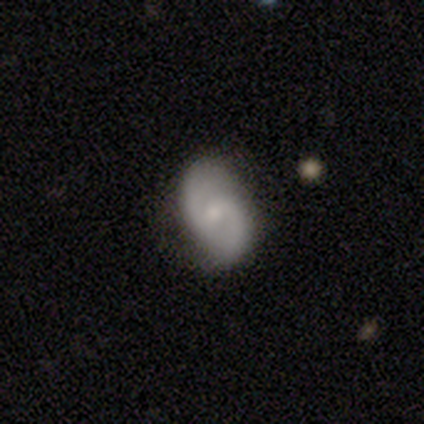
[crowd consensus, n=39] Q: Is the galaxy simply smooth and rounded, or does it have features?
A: featured or disk — 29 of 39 (74%).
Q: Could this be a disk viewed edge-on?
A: no — 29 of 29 (100%).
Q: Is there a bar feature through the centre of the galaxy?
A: weak — 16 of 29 (55%).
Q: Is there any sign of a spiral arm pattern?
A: yes — 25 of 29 (86%).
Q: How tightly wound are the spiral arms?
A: medium — 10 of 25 (40%).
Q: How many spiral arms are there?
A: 2 — 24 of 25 (96%).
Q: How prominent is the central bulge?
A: small — 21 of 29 (72%).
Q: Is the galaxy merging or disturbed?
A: none — 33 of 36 (92%).